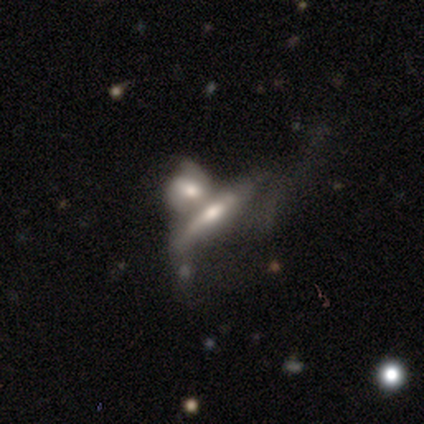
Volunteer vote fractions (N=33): Volunteers were most divided on "smooth or featured": featured or disk: 48%, smooth: 39%, star or artifact: 12%. More confident: edge-on bulge — rounded (90%); edge-on disk — yes (62%); merging — merger (52%).